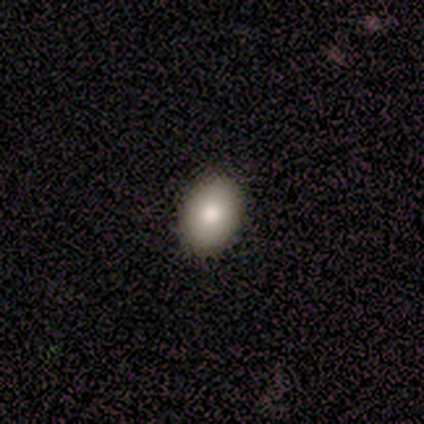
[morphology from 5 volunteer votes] This is clearly a smooth galaxy (80%). How rounded: likely in between (75%). Merging: clearly none (80%).